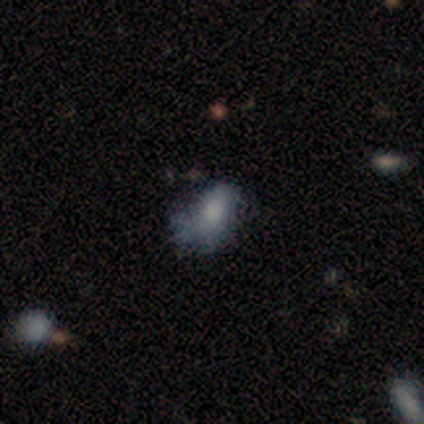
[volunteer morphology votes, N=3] smooth 33% (tied), featured or disk 33% (tied), star or artifact 33% (tied). Down the decision tree: how rounded — in between (100%); merging — minor disturbance (50%, tied with major disturbance).